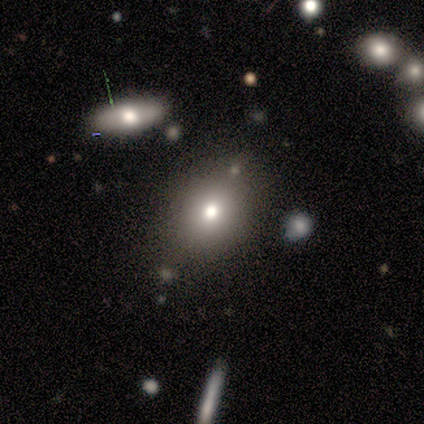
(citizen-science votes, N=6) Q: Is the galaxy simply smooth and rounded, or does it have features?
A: smooth — 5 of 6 (83%).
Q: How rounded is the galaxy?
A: in between — 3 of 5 (60%).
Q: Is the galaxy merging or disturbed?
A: none — 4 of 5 (80%).